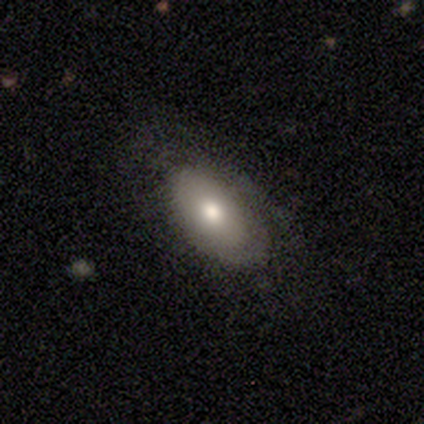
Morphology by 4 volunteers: A smooth galaxy with no disk features (75%) that is in between round and cigar-shaped (100%). Merging: none (75%).